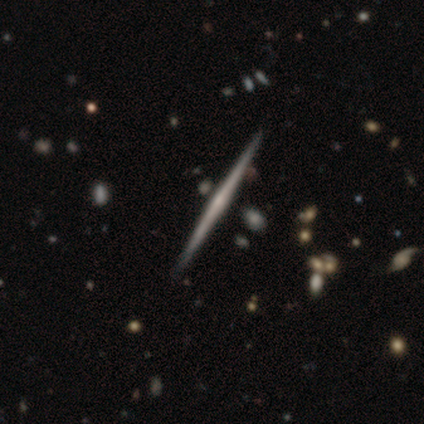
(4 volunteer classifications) smooth-or-featured: featured or disk: 75% | smooth: 25% | star or artifact: 0%
  disk-edge-on: yes: 100% | no: 0%
    edge-on-bulge: none: 67% | rounded: 33% | boxy: 0%
  merging: none: 100% | minor disturbance: 0% | major disturbance: 0% | merger: 0%